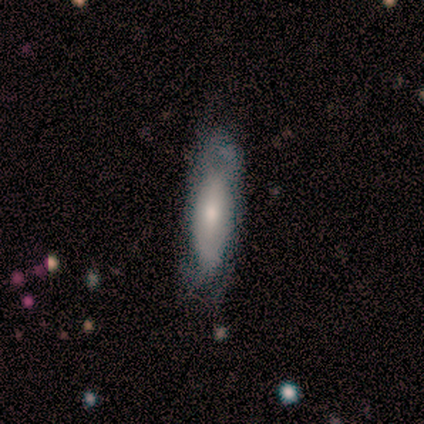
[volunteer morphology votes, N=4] Smooth or featured: featured or disk — 75% (smooth — 25%)
Edge-on disk: no — 100%
Bar: no — 100%
Spiral arms: no — 67% (yes — 33%)
Bulge size: small — 100%
Merging: none — 100%